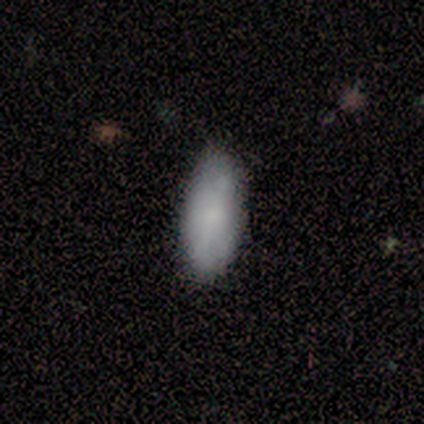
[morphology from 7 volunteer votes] Q: Smooth or featured?
A: smooth (71%); runner-up: featured or disk (14%)
Q: How rounded?
A: in between (100%)
Q: Merging?
A: none (67%); runner-up: minor disturbance (33%)